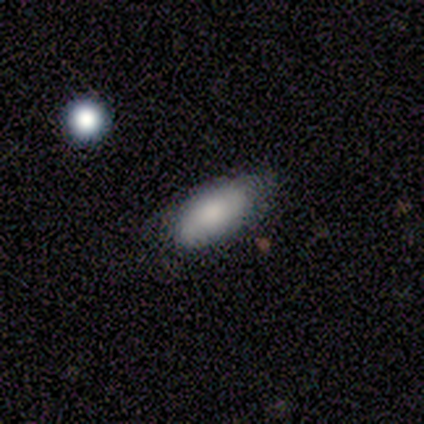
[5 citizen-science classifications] Morphology: type=smooth (80%); roundness=in between (100%); merging=none (80%).